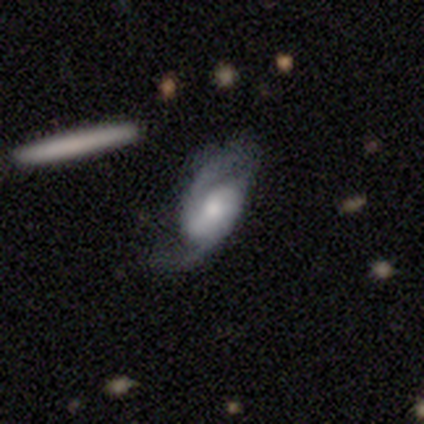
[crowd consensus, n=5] smooth_or_featured: featured or disk (p=1.00)
disk_edge_on: no (p=1.00)
bar: weak (p=0.40) [tied with: no p=0.40]
has_spiral_arms: yes (p=1.00)
spiral_winding: loose (p=0.60) [alt: medium p=0.40]
spiral_arm_count: 2 (p=0.80) [alt: 3 p=0.20]
bulge_size: moderate (p=0.40) [tied with: small p=0.40]
merging: none (p=0.60) [alt: minor disturbance p=0.40]